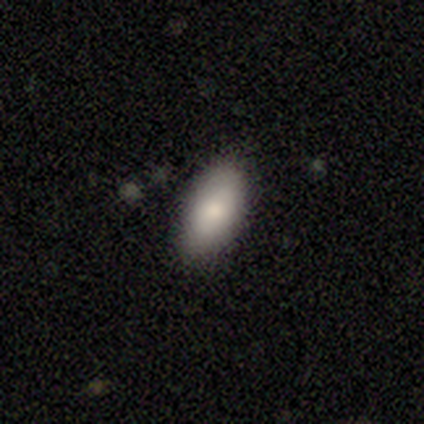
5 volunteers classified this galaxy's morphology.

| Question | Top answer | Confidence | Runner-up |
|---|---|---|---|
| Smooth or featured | smooth | 100% | — |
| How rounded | in between | 100% | — |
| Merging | none | 100% | — |